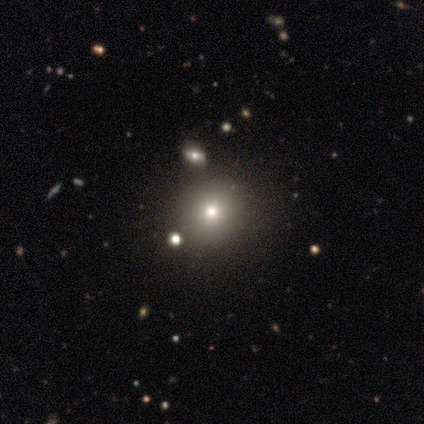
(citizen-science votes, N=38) Volunteers were most divided on "smooth or featured": smooth: 63%, star or artifact: 32%, featured or disk: 5%. More confident: merging — none (88%); how rounded — round (88%).